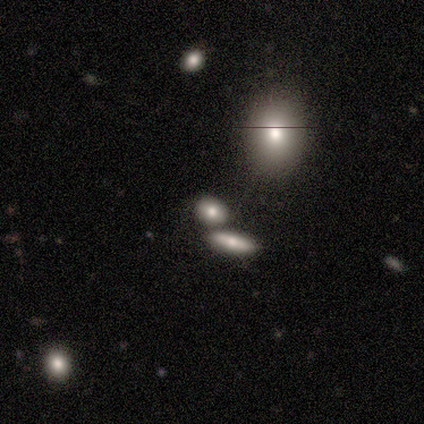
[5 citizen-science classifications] smooth-or-featured: star or artifact: 60% | smooth: 40% | featured or disk: 0%